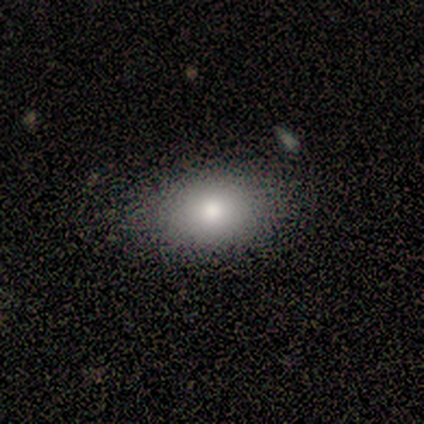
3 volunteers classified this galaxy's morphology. Overall: smooth (100%). How rounded: in between (100%). Merging: minor disturbance (67%; none 33%).